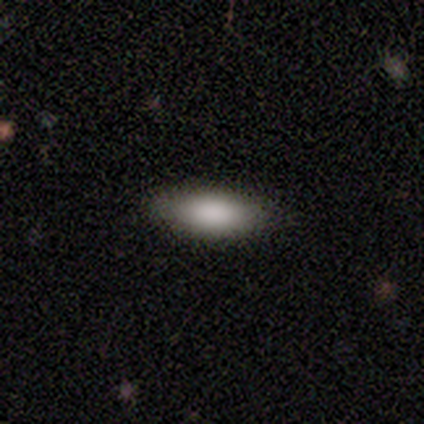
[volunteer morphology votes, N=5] Overall: smooth (100%). How rounded: in between (80%). Merging: none (80%).